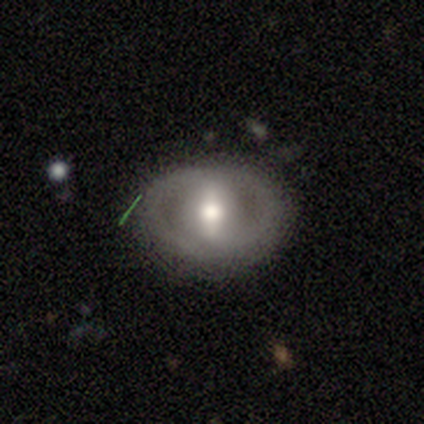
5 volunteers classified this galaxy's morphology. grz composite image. It shows a featured or disk galaxy (60%) with a strong bar (100%), 2 (100%) tight (67%) spiral arms (100%) and a moderate central bulge (67%). Merging: none (100%).